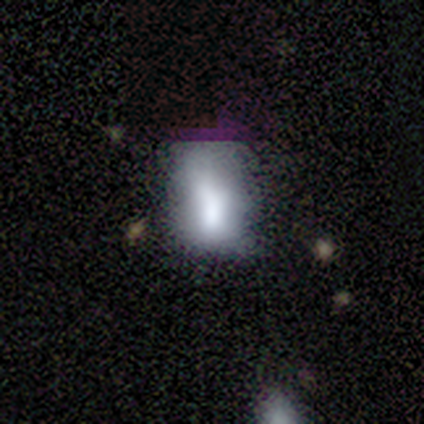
A smooth galaxy with no disk features (67%) that is in between round and cigar-shaped (92%).

Vote fractions:
- Smooth or featured? smooth: 67% / featured or disk: 18% / star or artifact: 15%
- How rounded? in between: 92% / round: 8% / cigar-shaped: 0%
- Merging? none: 42% / minor disturbance: 30% / major disturbance: 21% / merger: 6%